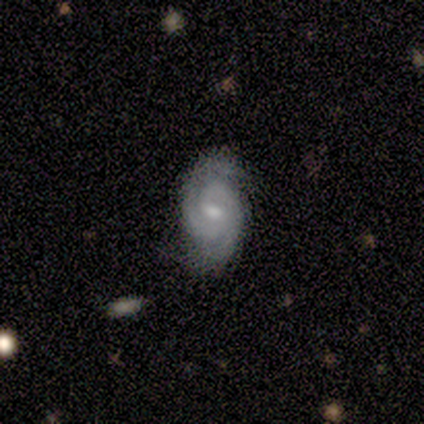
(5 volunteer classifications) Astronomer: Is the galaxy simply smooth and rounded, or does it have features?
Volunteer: featured or disk — 100%.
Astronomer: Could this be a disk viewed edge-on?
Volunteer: no — 100%.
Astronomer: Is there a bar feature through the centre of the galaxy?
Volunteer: weak — 60% (runner-up: no, 40%).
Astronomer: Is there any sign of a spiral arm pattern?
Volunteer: yes — 100%.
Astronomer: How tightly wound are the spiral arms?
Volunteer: medium — 80%.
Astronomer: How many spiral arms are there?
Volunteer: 2 — 100%.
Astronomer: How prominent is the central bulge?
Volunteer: moderate — 60% (runner-up: small, 40%).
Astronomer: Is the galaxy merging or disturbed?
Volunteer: none — 100%.